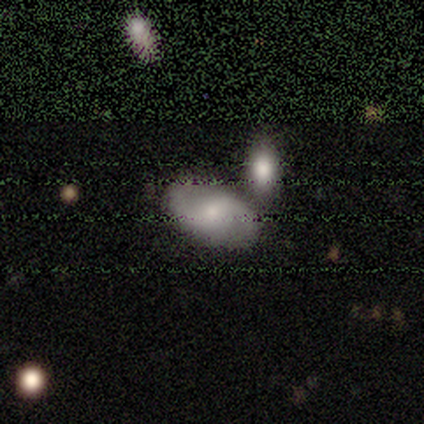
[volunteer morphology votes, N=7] Overall: smooth (57%; featured or disk 43%). How rounded: in between (100%). Merging: none (71%).